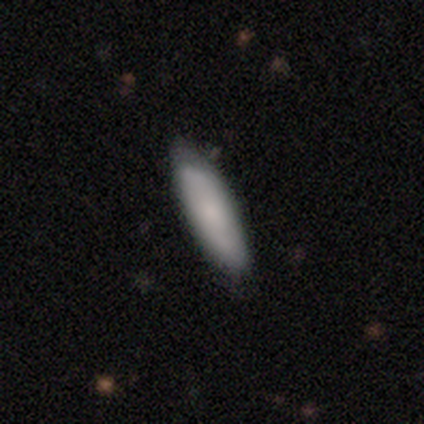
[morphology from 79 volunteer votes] Smooth or featured? 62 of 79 (78%) said smooth. How rounded? 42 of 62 (68%) said cigar-shaped. Merging? 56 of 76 (74%) said none.